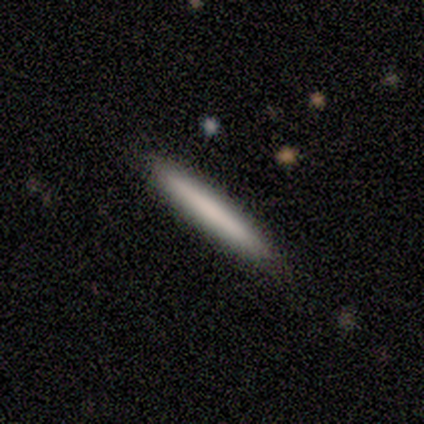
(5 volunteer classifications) Smooth or featured?
  - smooth: 80% *
  - featured or disk: 20%
  - star or artifact: 0%
How rounded?
  - cigar-shaped: 100% *
  - round: 0%
  - in between: 0%
Merging?
  - none: 100% *
  - minor disturbance: 0%
  - major disturbance: 0%
  - merger: 0%